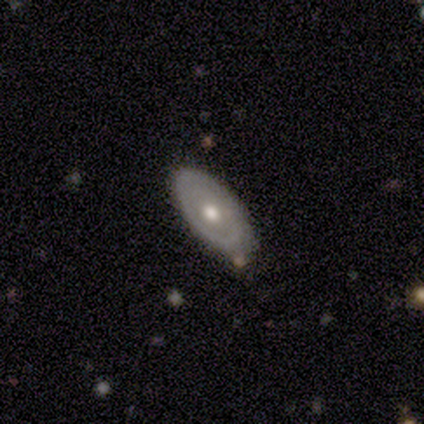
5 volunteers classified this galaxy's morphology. smooth_or_featured: featured or disk (p=0.80) [alt: smooth p=0.20]
disk_edge_on: no (p=1.00)
bar: no (p=1.00)
has_spiral_arms: yes (p=0.50) [tied with: no p=0.50]
spiral_winding: tight (p=1.00)
spiral_arm_count: can't tell (p=1.00)
bulge_size: moderate (p=1.00)
merging: none (p=0.80) [alt: minor disturbance p=0.20]